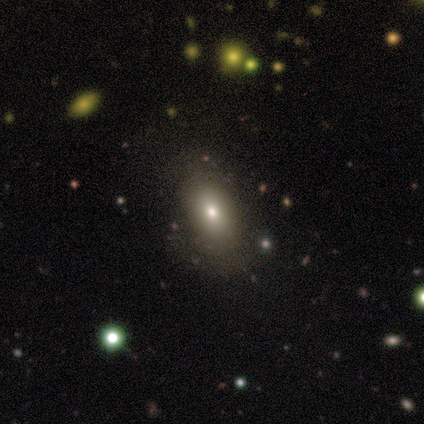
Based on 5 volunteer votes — Morphology: type=smooth (80%); roundness=in between (100%); merging=minor disturbance (75%).